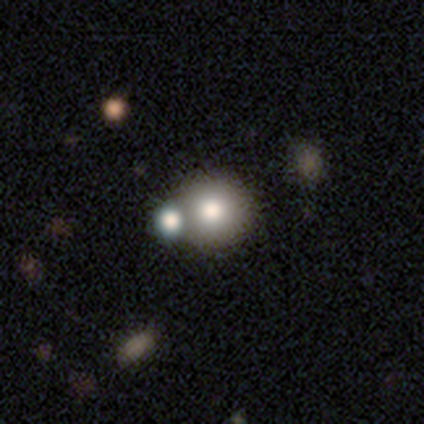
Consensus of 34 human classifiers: Smooth or featured? smooth (79%)
How rounded? round (96%)
Merging? merger (62%)